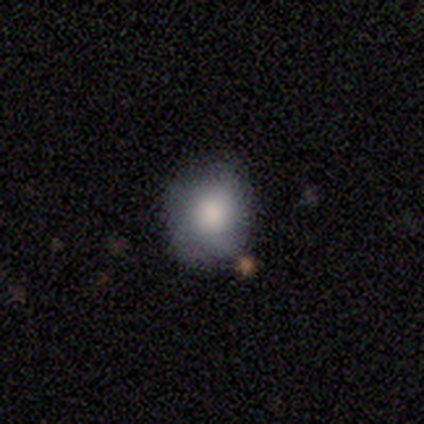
Morphology: type=smooth (100%); roundness=round (67%); merging=none (100%).